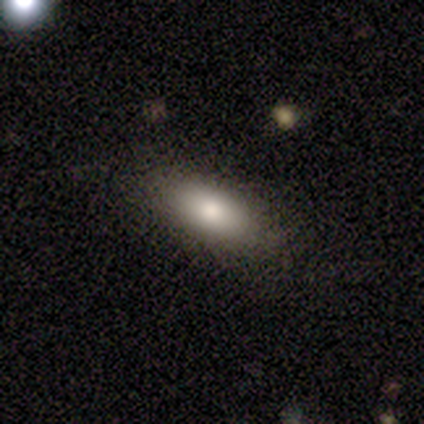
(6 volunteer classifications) Smooth or featured? 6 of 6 (100%) said smooth. How rounded? 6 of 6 (100%) said in between. Merging? 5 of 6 (83%) said none.